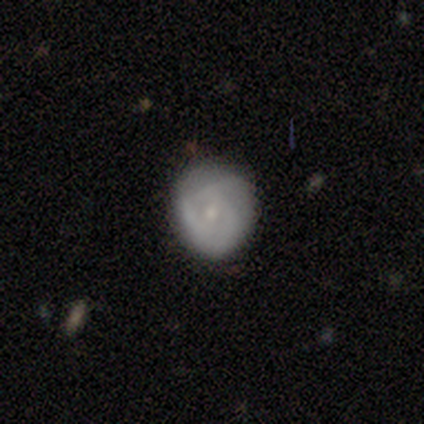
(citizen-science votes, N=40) Q: Smooth or featured?
A: featured or disk (45%); runner-up: smooth (42%)
Q: Edge-on disk?
A: no (94%); runner-up: yes (6%)
Q: Bar?
A: no (53%); runner-up: weak (41%)
Q: Spiral arms?
A: yes (65%); runner-up: no (35%)
Q: Spiral winding?
A: tight (64%); runner-up: loose (27%)
Q: Spiral arm count?
A: can't tell (36%); runner-up: 3 (27%)
Q: Bulge size?
A: small (65%); runner-up: moderate (35%)
Q: Merging?
A: none (74%); runner-up: minor disturbance (17%)